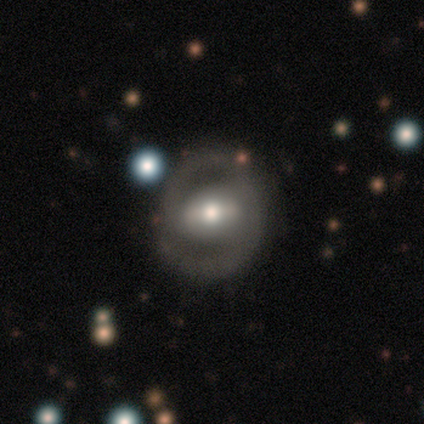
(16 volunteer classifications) A featured or disk galaxy (56%) with no bar (44%), 2 (80%) tight (60%) spiral arms (56%) and a moderate central bulge (56%).

Vote fractions:
- Smooth or featured? featured or disk: 56% / smooth: 31% / star or artifact: 12%
- Edge-on disk? no: 100% / yes: 0%
- Bar? no: 44% / weak: 33% / strong: 22%
- Spiral arms? yes: 56% / no: 44%
- Spiral winding? tight: 60% / medium: 20% / loose: 20%
- Spiral arm count? 2: 80% / 3: 20% / 1: 0% / 4: 0% / more than 4: 0% / can't tell: 0%
- Bulge size? moderate: 56% / small: 33% / large: 11% / dominant: 0% / none: 0%
- Merging? none: 71% / minor disturbance: 21% / major disturbance: 7% / merger: 0%